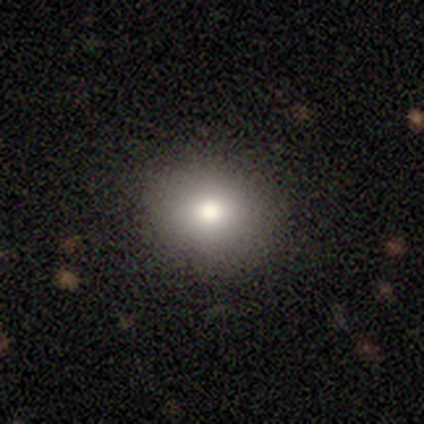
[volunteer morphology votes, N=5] A smooth galaxy with no disk features (100%) that is in between round and cigar-shaped (80%). Merging: none (100%).